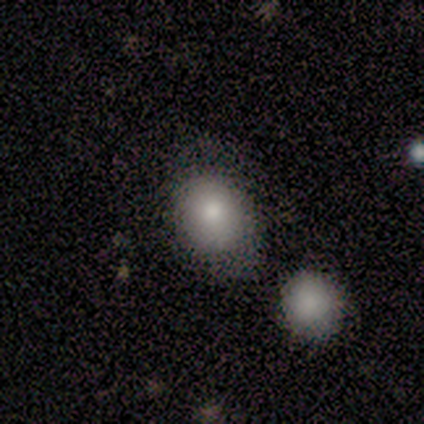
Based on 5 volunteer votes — This appears to be a smooth galaxy with no disk features (100%) that is round (60%). Merging: none (60%).